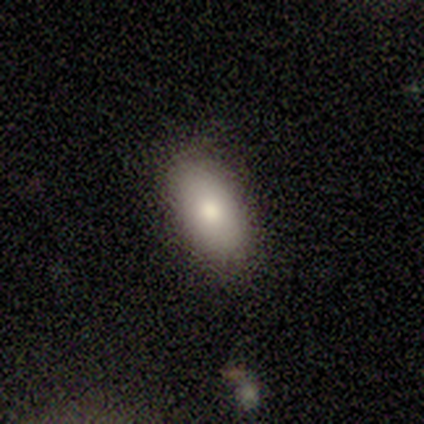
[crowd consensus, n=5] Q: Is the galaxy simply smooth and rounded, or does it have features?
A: smooth — 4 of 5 (80%).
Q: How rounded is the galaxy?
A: in between — 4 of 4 (100%).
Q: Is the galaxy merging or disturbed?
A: none — 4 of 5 (80%).